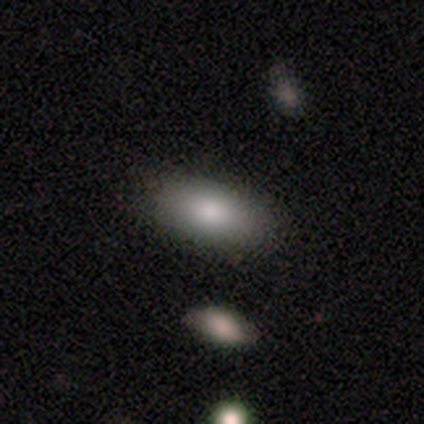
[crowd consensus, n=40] smooth 90%, featured or disk 10%, star or artifact 0%. Down the decision tree: how rounded — in between (92%); merging — none (75%).